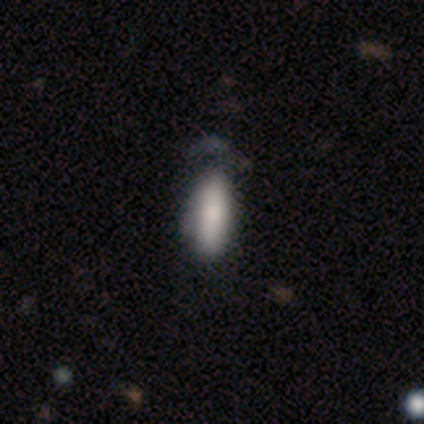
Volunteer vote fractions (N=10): Q: Smooth or featured?
A: smooth (70%); runner-up: star or artifact (20%)
Q: How rounded?
A: in between (100%)
Q: Merging?
A: none (38%); tied with: minor disturbance (38%)